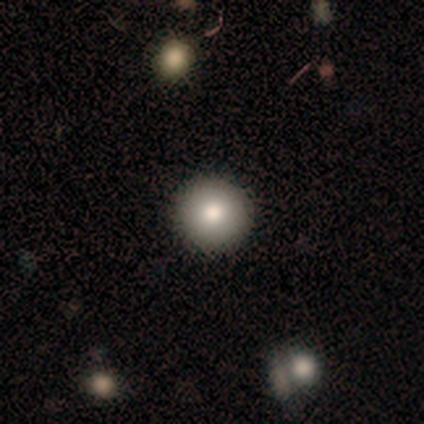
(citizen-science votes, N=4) A smooth galaxy with no disk features (75%) that is round (100%). Merging: none (100%).